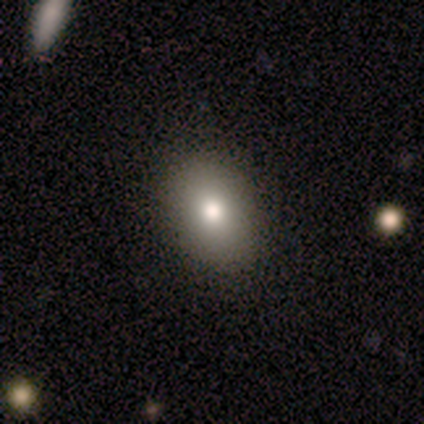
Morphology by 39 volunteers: This is likely a smooth galaxy (79%). How rounded: clearly in between (81%). Merging: likely none (72%).